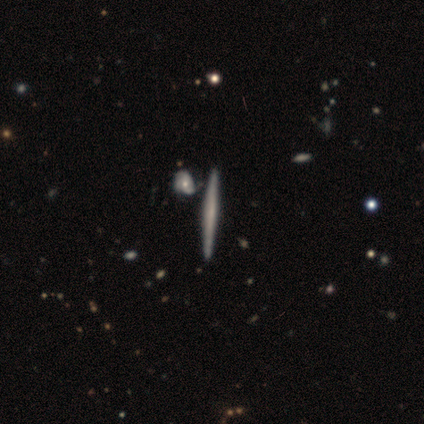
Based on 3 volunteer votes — This is likely a featured or disk galaxy (67%). It is clearly viewed edge-on (100%). Edge-on bulge: clearly none (100%). Merging: clearly none (100%).